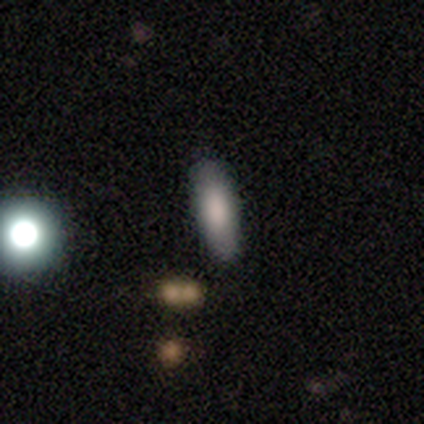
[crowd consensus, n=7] smooth-or-featured: smooth: 100% | featured or disk: 0% | star or artifact: 0%
  how-rounded: in between: 86% | cigar-shaped: 14% | round: 0%
  merging: none: 86% | merger: 14% | minor disturbance: 0% | major disturbance: 0%